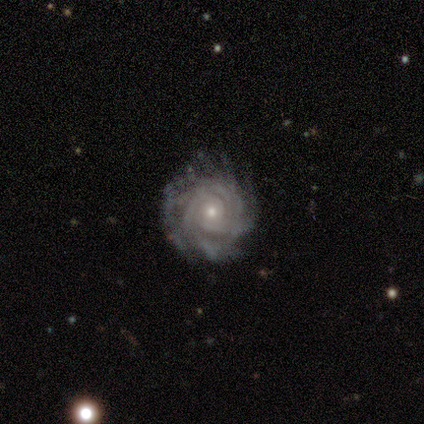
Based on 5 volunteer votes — featured or disk 100%, smooth 0%, star or artifact 0%. Down the decision tree: edge-on disk — no (100%); bar — no (100%); spiral arms — yes (100%); spiral arm count — 4 (40%, tied with can't tell); spiral winding — tight (80%); bulge size — small (60%); merging — none (60%).